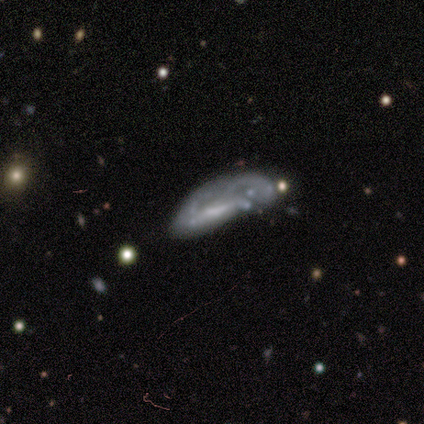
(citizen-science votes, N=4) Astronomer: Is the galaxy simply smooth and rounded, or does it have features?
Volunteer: featured or disk — 75%.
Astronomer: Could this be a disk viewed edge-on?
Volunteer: no — 100%.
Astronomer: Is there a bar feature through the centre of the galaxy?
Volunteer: no — 67%.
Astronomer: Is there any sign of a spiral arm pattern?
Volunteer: no — 100%.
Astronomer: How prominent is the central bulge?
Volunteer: small — 100%.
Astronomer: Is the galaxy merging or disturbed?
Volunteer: major disturbance — 67%.